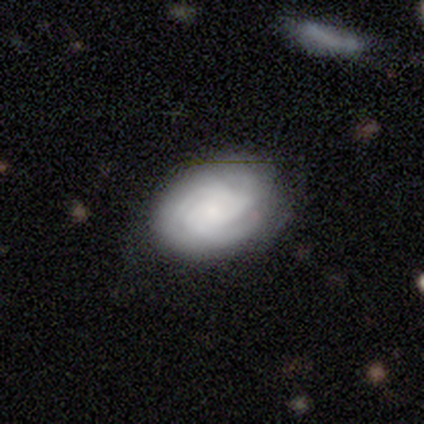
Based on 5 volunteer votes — Smooth or featured?
  - smooth: 40% * (tied)
  - featured or disk: 40% * (tied)
  - star or artifact: 20%
How rounded?
  - round: 50% * (tied)
  - in between: 50% * (tied)
  - cigar-shaped: 0%
Merging?
  - none: 75% *
  - major disturbance: 25%
  - minor disturbance: 0%
  - merger: 0%